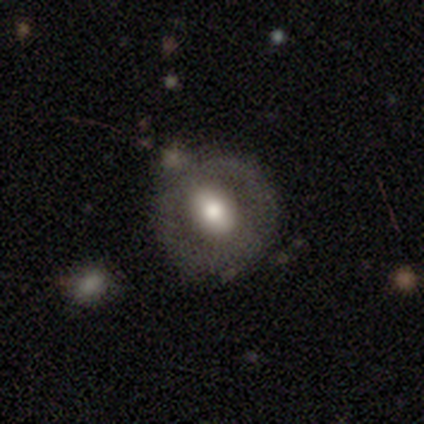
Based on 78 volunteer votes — smooth_or_featured: featured or disk (p=0.51) [alt: smooth p=0.44]
disk_edge_on: no (p=0.97) [alt: yes p=0.03]
bar: weak (p=0.54) [alt: no p=0.28]
has_spiral_arms: no (p=0.90) [alt: yes p=0.10]
bulge_size: moderate (p=0.59) [alt: large p=0.36]
merging: none (p=0.34) [alt: merger p=0.11]